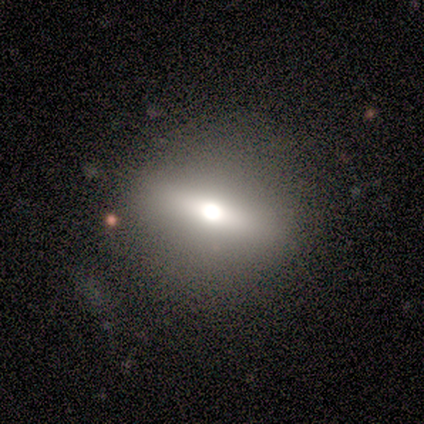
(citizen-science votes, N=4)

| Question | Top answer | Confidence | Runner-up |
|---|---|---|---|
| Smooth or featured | smooth | 75% | featured or disk (25%) |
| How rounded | cigar-shaped | 67% | in between (33%) |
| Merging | none | 100% | — |